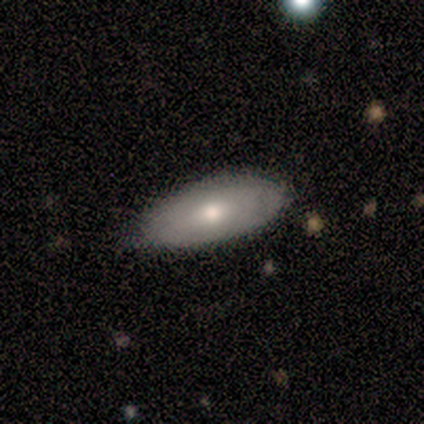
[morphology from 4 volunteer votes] This is possibly a smooth galaxy (50%, tied with featured or disk). How rounded: clearly in between (100%). Merging: possibly none (50%, tied with minor disturbance).